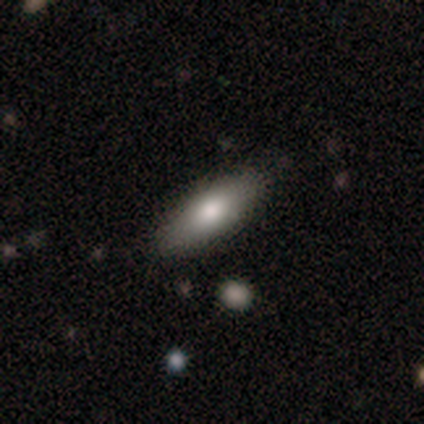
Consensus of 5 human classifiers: Overall: smooth (100%). How rounded: in between (80%). Merging: none (100%).